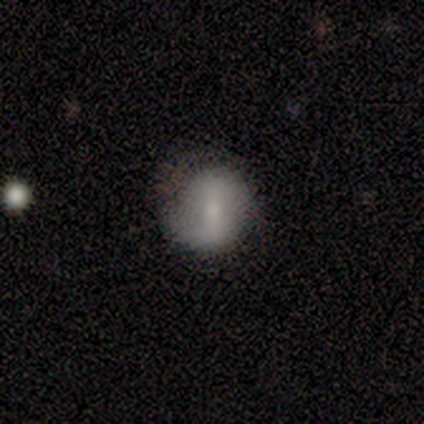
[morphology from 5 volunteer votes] Volunteers were most divided on "merging" (2-way tie): none: 40%, minor disturbance: 40%, major disturbance: 20%, merger: 0%. More confident: edge-on disk — no (100%); smooth or featured — featured or disk (80%); spiral arms — no (75%); bar — weak (50%); bulge size — small (50%).